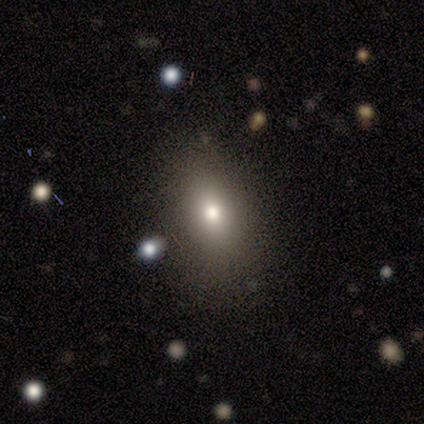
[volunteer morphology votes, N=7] Smooth or featured?
  - smooth: 86% *
  - featured or disk: 14%
  - star or artifact: 0%
How rounded?
  - in between: 100% *
  - round: 0%
  - cigar-shaped: 0%
Merging?
  - none: 71% *
  - minor disturbance: 14%
  - major disturbance: 14%
  - merger: 0%